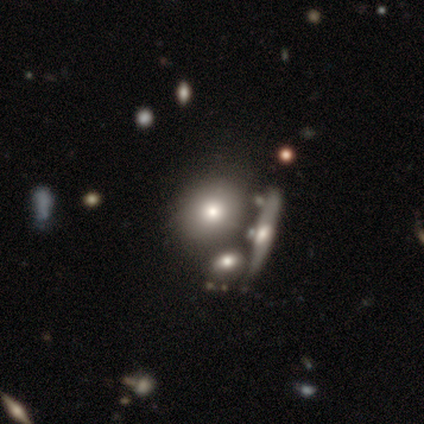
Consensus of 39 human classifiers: smooth 64%, featured or disk 31%, star or artifact 5%. Down the decision tree: how rounded — round (68%); merging — none (57%).